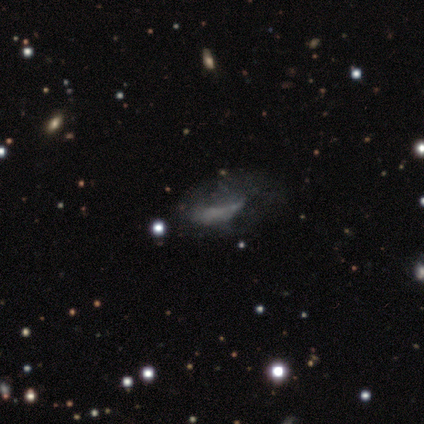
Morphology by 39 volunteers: This is possibly a featured or disk galaxy (59%). It is clearly not viewed edge-on (100%). Bar: likely no (74%). Spiral arm pattern: likely no (74%). Central bulge: clearly none (83%). Merging: marginally none (30%).